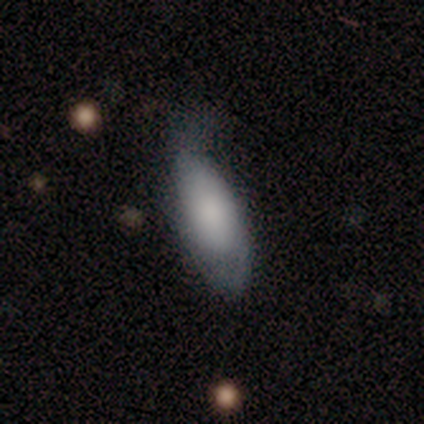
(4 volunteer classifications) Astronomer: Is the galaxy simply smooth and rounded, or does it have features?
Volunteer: smooth — 100%.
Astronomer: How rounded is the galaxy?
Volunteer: in between — 50%, tied with cigar-shaped at 50%.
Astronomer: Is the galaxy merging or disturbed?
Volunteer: minor disturbance — 50%.